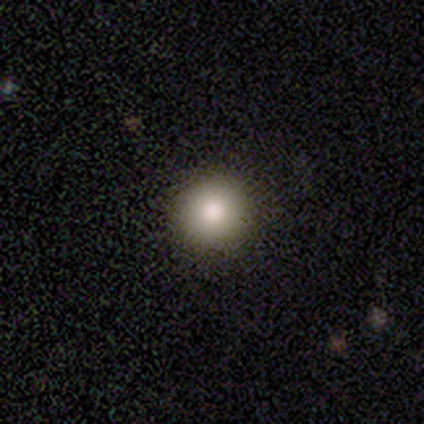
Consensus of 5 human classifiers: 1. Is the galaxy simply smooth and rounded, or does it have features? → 100% smooth, 0% featured or disk, 0% star or artifact.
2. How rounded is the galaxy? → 100% round, 0% in between, 0% cigar-shaped.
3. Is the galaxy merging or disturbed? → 100% none, 0% minor disturbance, 0% major disturbance, 0% merger.